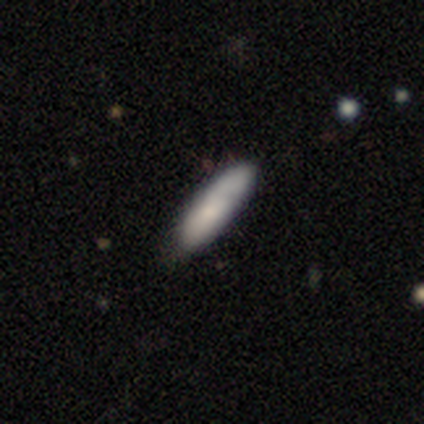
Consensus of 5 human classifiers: A smooth galaxy with no disk features (80%) that is in between round and cigar-shaped (50%, tied with cigar-shaped). Merging: none (60%).